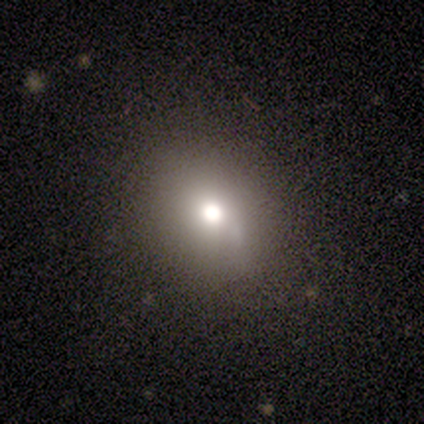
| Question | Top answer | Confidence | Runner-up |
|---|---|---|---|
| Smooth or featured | smooth | 40% | tied: featured or disk (40%) |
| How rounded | round | 50% | tied: in between (50%) |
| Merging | none | 75% | minor disturbance (25%) |